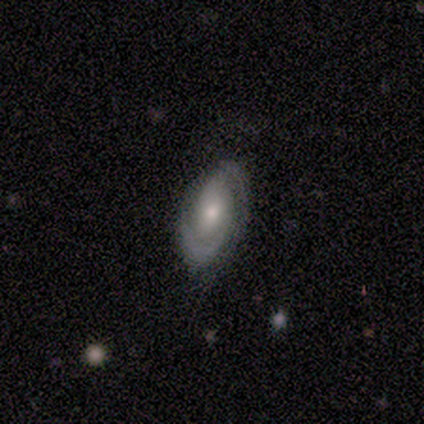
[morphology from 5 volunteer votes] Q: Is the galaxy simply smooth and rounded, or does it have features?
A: featured or disk — 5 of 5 (100%).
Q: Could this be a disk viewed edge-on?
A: no — 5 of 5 (100%).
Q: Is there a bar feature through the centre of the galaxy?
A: no — 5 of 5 (100%).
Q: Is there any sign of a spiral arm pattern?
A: yes — 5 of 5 (100%).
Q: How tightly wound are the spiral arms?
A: medium — 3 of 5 (60%).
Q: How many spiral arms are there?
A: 2 — 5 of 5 (100%).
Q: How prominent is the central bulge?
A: moderate — 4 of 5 (80%).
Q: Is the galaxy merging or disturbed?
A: none — 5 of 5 (100%).